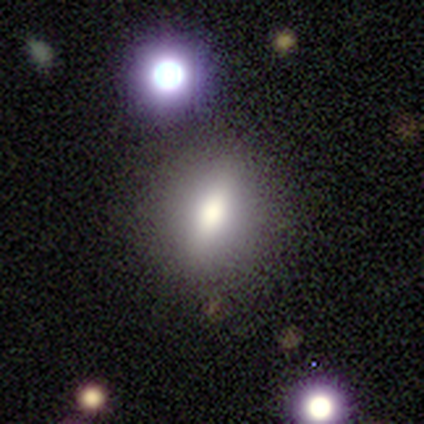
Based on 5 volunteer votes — Q: Smooth or featured?
A: smooth (60%); runner-up: featured or disk (40%)
Q: How rounded?
A: in between (67%); runner-up: round (33%)
Q: Merging?
A: none (80%); runner-up: merger (20%)